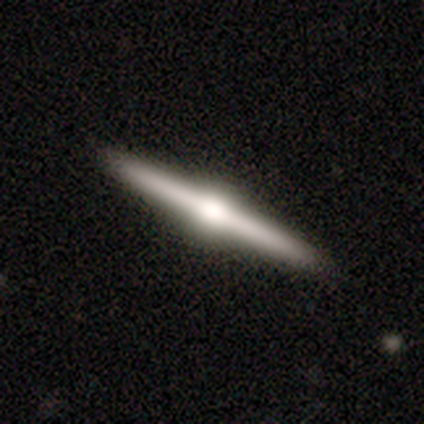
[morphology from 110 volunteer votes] This appears to be a featured or disk galaxy (84%) viewed edge-on (100%) with a rounded central bulge (95%). Merging: none (95%).